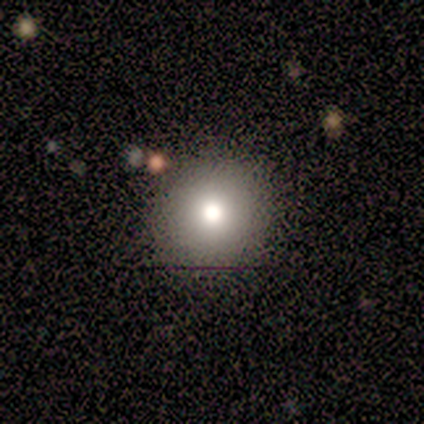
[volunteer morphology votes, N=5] Volunteers were most divided on "smooth or featured": smooth: 60%, star or artifact: 40%, featured or disk: 0%. More confident: how rounded — round (67%); merging — none (67%).